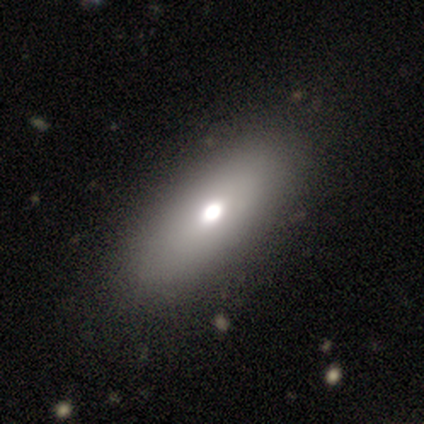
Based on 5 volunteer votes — A smooth galaxy with no disk features (80%) that is in between round and cigar-shaped (100%).

Vote fractions:
- Smooth or featured? smooth: 80% / star or artifact: 20% / featured or disk: 0%
- How rounded? in between: 100% / round: 0% / cigar-shaped: 0%
- Merging? none: 100% / minor disturbance: 0% / major disturbance: 0% / merger: 0%